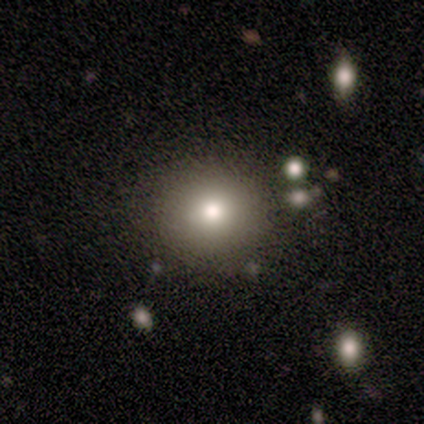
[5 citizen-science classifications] This is clearly a smooth galaxy (100%). How rounded: clearly round (80%). Merging: likely none (60%).